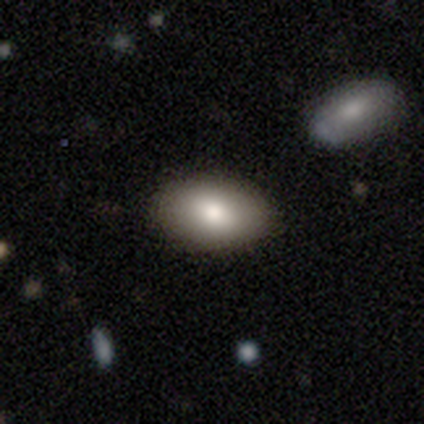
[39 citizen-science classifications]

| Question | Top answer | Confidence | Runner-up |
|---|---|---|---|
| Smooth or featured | smooth | 87% | featured or disk (13%) |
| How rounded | in between | 100% | — |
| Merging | none | 62% | minor disturbance (8%) |